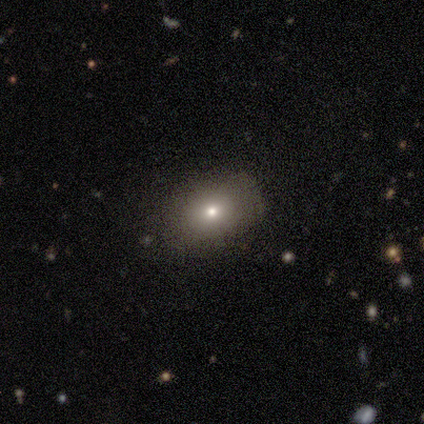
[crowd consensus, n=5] smooth 40% (tied), star or artifact 40% (tied), featured or disk 20%. Down the decision tree: how rounded — round (50%, tied with in between); merging — none (100%).